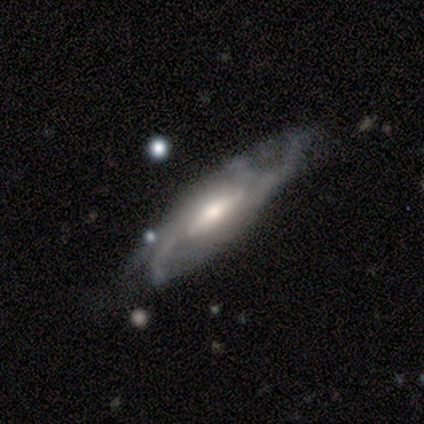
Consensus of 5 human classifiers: smooth_or_featured: featured or disk (p=0.60) [alt: smooth p=0.20]
disk_edge_on: no (p=0.67) [alt: yes p=0.33]
bar: weak (p=0.50) [tied with: no p=0.50]
has_spiral_arms: yes (p=1.00)
spiral_winding: tight (p=0.50) [tied with: medium p=0.50]
spiral_arm_count: can't tell (p=1.00)
bulge_size: moderate (p=0.50) [tied with: small p=0.50]
merging: none (p=0.50) [tied with: minor disturbance p=0.50]